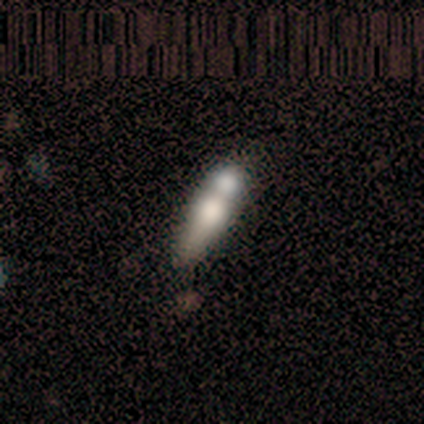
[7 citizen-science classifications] featured or disk 57%, smooth 43%, star or artifact 0%. Down the decision tree: edge-on disk — no (100%); bar — no (100%); spiral arms — no (100%); bulge size — moderate (100%); merging — merger (71%).